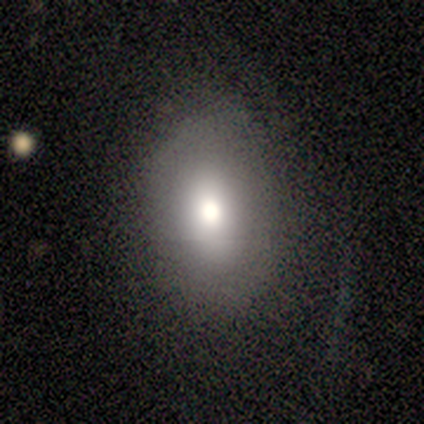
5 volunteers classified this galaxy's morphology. A smooth galaxy with no disk features (80%) that is in between round and cigar-shaped (75%). Merging: none (80%).